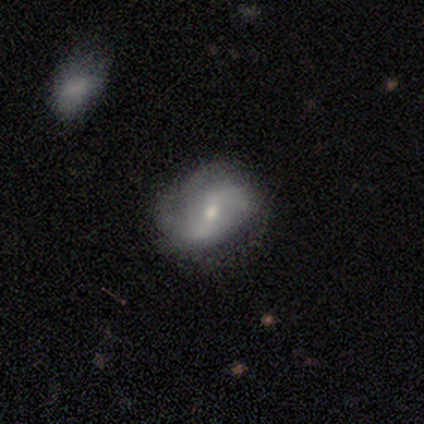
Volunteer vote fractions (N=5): smooth-or-featured: featured or disk: 80% | smooth: 20% | star or artifact: 0%
  disk-edge-on: no: 100% | yes: 0%
    bar: weak: 50% (tied) | no: 50% (tied) | strong: 0%
    has-spiral-arms: yes: 100% | no: 0%
      spiral-winding: loose: 50% | tight: 25% | medium: 25%
      spiral-arm-count: 2: 50% (tied) | can't tell: 50% (tied) | 1: 0% | 3: 0% | 4: 0% | more than 4: 0%
    bulge-size: moderate: 75% | small: 25% | dominant: 0% | large: 0% | none: 0%
  merging: minor disturbance: 60% | none: 40% | major disturbance: 0% | merger: 0%